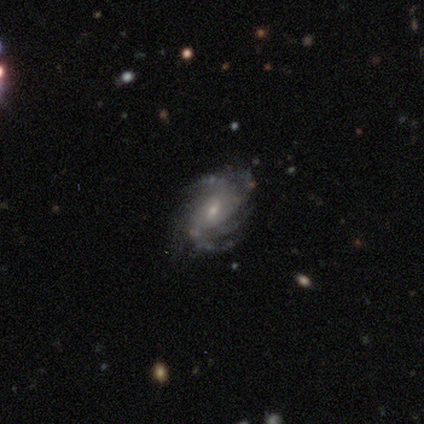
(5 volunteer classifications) A featured or disk galaxy (80%) with a weak bar (75%), 2 (25%, tied with 3, more than 4 and can't tell) tight (50%, tied with medium) spiral arms (100%) and a small central bulge (75%). Merging: none (60%).